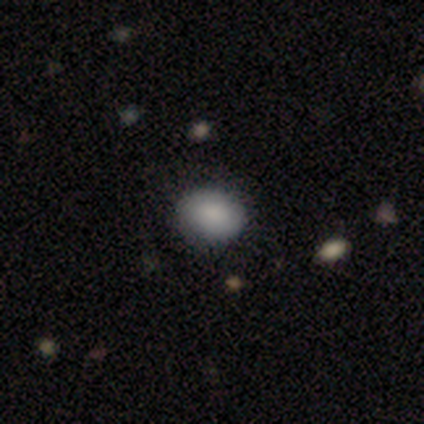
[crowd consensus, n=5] This is clearly a smooth galaxy (100%). How rounded: likely in between (60%). Merging: clearly none (80%).